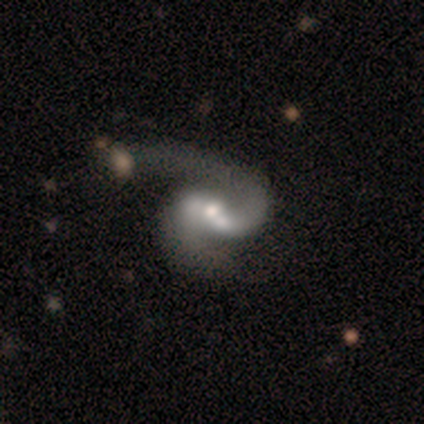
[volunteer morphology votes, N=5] This appears to be a featured or disk galaxy (80%) with a weak bar (75%), 2 (75%) medium (50%, tied with loose) spiral arms (100%) and a moderate central bulge (75%). Merging: none (100%).